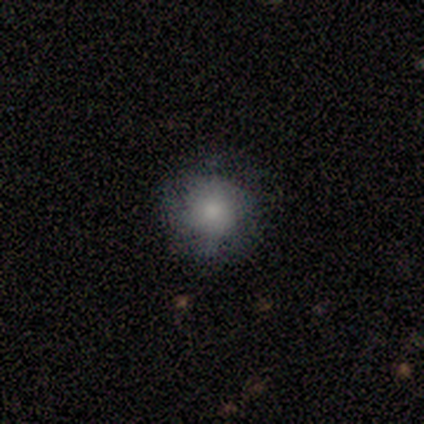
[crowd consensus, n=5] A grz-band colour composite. It shows a smooth galaxy with no disk features (80%) that is round (100%). Merging: none (80%).